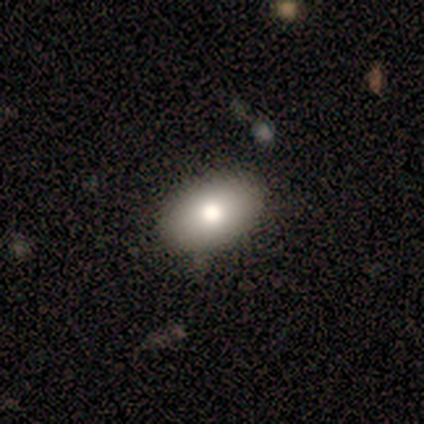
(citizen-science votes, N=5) smooth_or_featured: smooth (p=0.60) [alt: featured or disk p=0.40]
how_rounded: in between (p=0.67) [alt: cigar-shaped p=0.33]
merging: none (p=0.60) [alt: minor disturbance p=0.20]